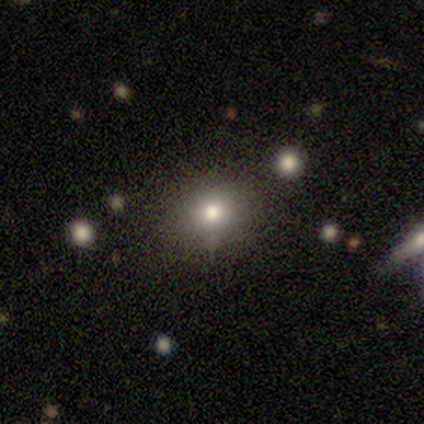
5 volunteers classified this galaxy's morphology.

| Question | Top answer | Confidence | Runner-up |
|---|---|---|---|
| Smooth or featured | smooth | 60% | featured or disk (20%) |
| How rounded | round | 100% | — |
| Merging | none | 75% | minor disturbance (25%) |